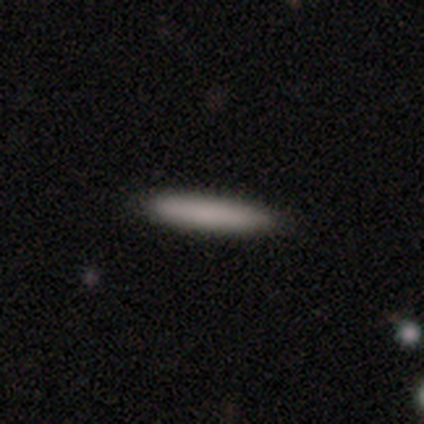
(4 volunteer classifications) A smooth galaxy with no disk features (100%) that is cigar-shaped (100%).

Vote fractions:
- Smooth or featured? smooth: 100% / featured or disk: 0% / star or artifact: 0%
- How rounded? cigar-shaped: 100% / round: 0% / in between: 0%
- Merging? none: 75% / minor disturbance: 25% / major disturbance: 0% / merger: 0%